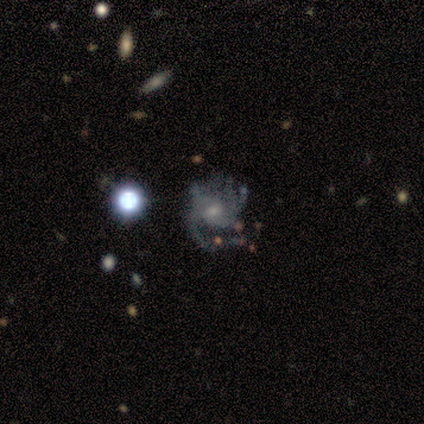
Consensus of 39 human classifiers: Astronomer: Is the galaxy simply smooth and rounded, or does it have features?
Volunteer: featured or disk — 82%.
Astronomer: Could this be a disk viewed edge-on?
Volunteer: no — 97%.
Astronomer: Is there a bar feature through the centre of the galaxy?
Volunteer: no — 71%.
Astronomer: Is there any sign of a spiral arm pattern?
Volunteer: yes — 84%.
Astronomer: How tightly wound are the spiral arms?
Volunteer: medium — 50% (runner-up: tight, 35%).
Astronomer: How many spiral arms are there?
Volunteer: can't tell — 31% (runner-up: 1, 23%).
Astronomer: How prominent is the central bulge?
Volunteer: small — 48% (runner-up: moderate, 42%).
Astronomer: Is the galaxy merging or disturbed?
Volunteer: none — 49% (runner-up: major disturbance, 26%).